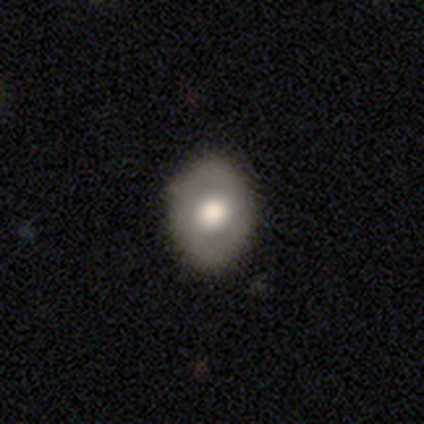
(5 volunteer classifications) Smooth or featured? smooth (60%)
How rounded? round (67%)
Merging? none (100%)